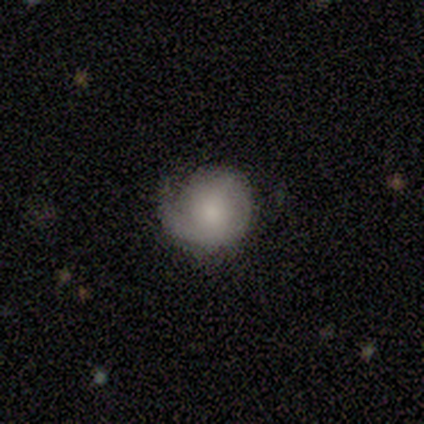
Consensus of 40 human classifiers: Morphology: type=featured or disk (60%); edge-on=no (100%); bar=no (96%); spiral arms=yes (75%); winding=tight (50%); arm count=1 (56%); bulge=moderate (42%); merging=none (52%).